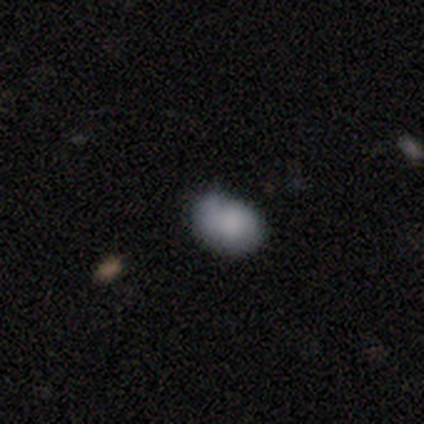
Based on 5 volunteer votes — smooth_or_featured: smooth (p=1.00)
how_rounded: in between (p=0.60) [alt: round p=0.40]
merging: none (p=1.00)